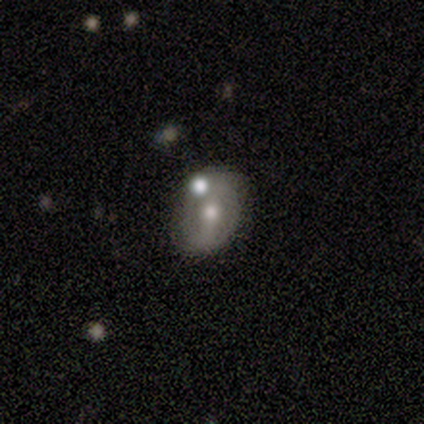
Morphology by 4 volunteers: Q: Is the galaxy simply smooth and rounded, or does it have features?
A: featured or disk — 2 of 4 (50%).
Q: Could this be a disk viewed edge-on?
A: yes — 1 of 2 (50%, tied with no).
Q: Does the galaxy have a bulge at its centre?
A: rounded — 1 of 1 (100%).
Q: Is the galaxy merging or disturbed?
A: none — 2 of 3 (67%).